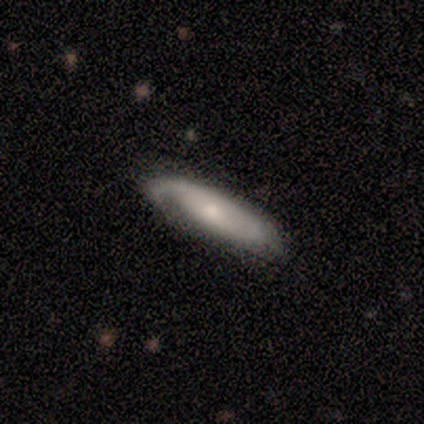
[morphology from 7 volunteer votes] Smooth or featured: smooth — 57% (featured or disk — 43%)
How rounded: in between — 75% (cigar-shaped — 25%)
Merging: none — 57% (major disturbance — 29%)